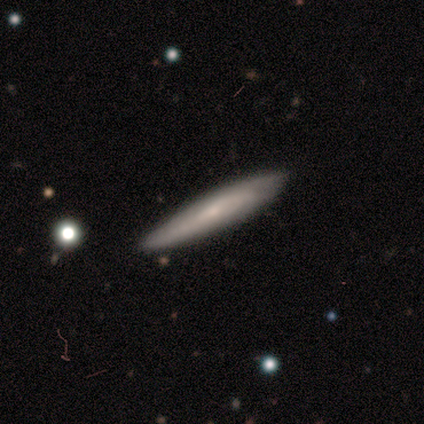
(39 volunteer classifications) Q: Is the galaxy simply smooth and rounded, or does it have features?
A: featured or disk — 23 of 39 (59%).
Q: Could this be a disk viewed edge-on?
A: yes — 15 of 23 (65%).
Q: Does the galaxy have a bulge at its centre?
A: none — 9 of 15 (60%).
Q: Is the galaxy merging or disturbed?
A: none — 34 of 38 (89%).